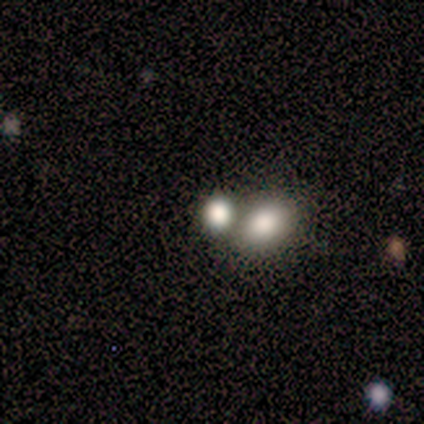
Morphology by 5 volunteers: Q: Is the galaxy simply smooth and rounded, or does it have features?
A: smooth — 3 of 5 (60%).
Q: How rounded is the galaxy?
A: round — 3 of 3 (100%).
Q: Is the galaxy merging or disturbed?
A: none — 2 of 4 (50%, tied with merger).